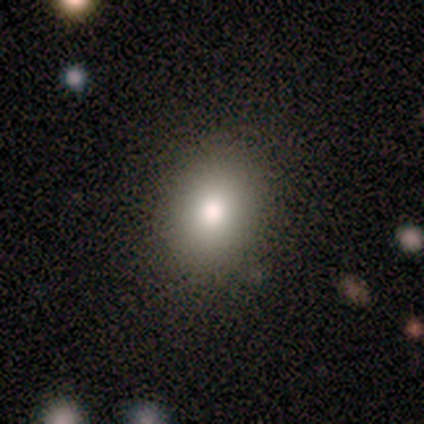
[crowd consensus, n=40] Smooth or featured? 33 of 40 (82%) said smooth. How rounded? 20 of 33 (61%) said in between. Merging? 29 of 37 (78%) said none.